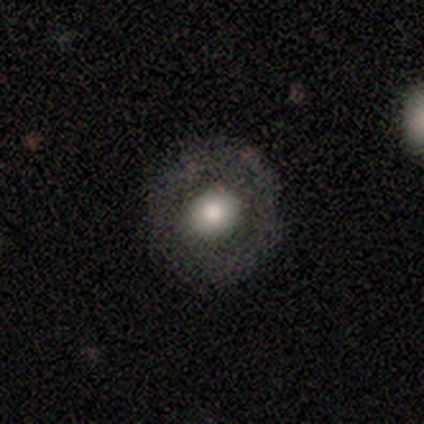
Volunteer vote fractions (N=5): Smooth or featured: smooth — 80% (featured or disk — 20%)
How rounded: round — 50% (tied with in between — 50%)
Merging: none — 80% (minor disturbance — 20%)